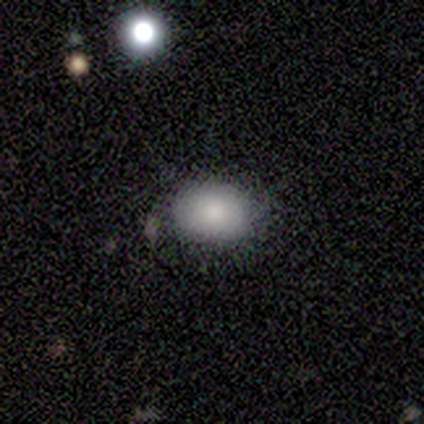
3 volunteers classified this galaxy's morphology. This is clearly a smooth galaxy (100%). How rounded: likely in between (67%). Merging: likely none (67%).